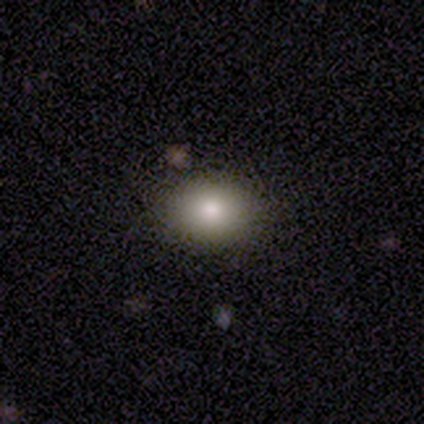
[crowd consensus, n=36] Q: Smooth or featured?
A: smooth (86%); runner-up: star or artifact (8%)
Q: How rounded?
A: in between (61%); runner-up: round (39%)
Q: Merging?
A: none (97%); runner-up: minor disturbance (3%)